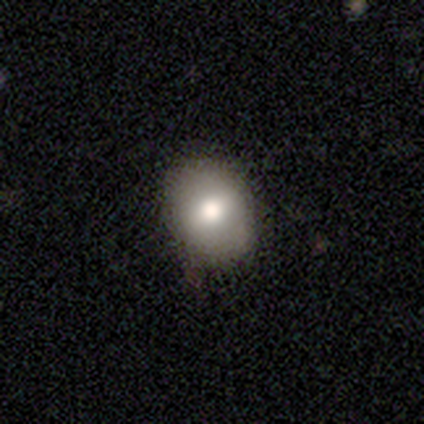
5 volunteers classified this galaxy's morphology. Smooth or featured?
  - smooth: 40% * (tied)
  - featured or disk: 40% * (tied)
  - star or artifact: 20%
How rounded?
  - in between: 100% *
  - round: 0%
  - cigar-shaped: 0%
Merging?
  - none: 100% *
  - minor disturbance: 0%
  - major disturbance: 0%
  - merger: 0%